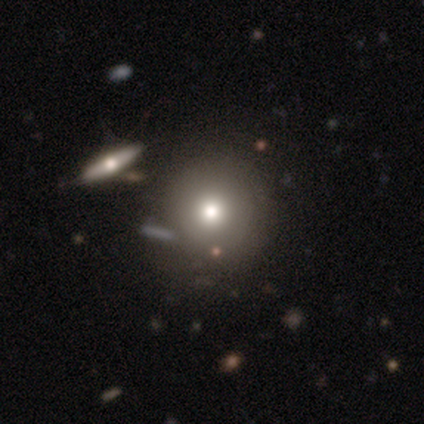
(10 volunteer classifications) This is likely a smooth galaxy (60%). How rounded: clearly round (100%). Merging: likely none (78%).